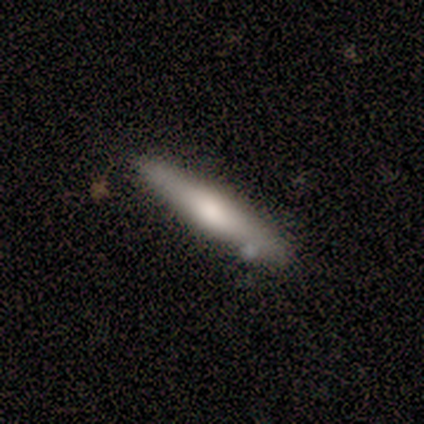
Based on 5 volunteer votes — A smooth galaxy with no disk features (60%) that is cigar-shaped (100%).

Vote fractions:
- Smooth or featured? smooth: 60% / featured or disk: 40% / star or artifact: 0%
- How rounded? cigar-shaped: 100% / round: 0% / in between: 0%
- Merging? none: 100% / minor disturbance: 0% / major disturbance: 0% / merger: 0%